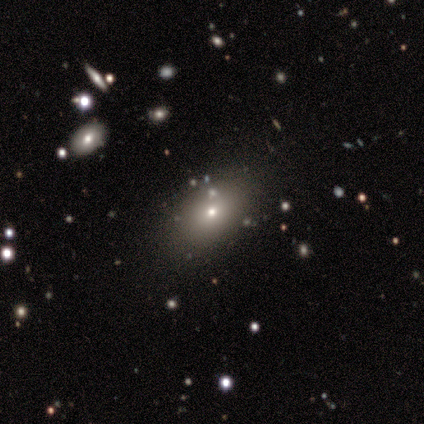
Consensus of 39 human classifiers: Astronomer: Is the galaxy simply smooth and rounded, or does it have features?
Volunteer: smooth — 85%.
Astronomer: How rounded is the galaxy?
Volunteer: in between — 82%.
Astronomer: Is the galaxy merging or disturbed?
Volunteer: none — 86%.